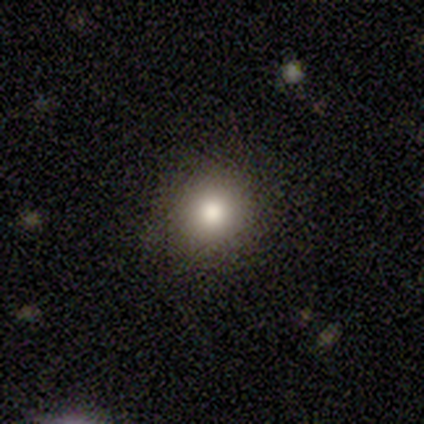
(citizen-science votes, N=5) A smooth galaxy with no disk features (100%) that is round (100%). Merging: none (100%).